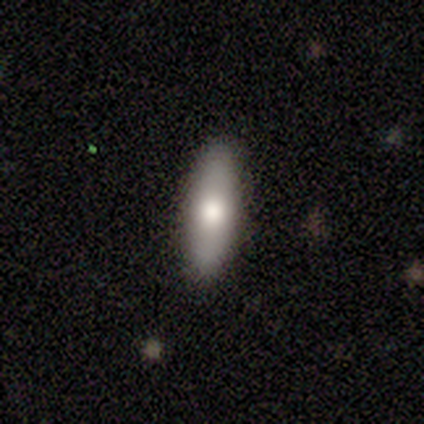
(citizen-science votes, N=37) Volunteers were most divided on "how rounded": in between: 52%, cigar-shaped: 40%, round: 8%. More confident: merging — none (89%); smooth or featured — smooth (68%).